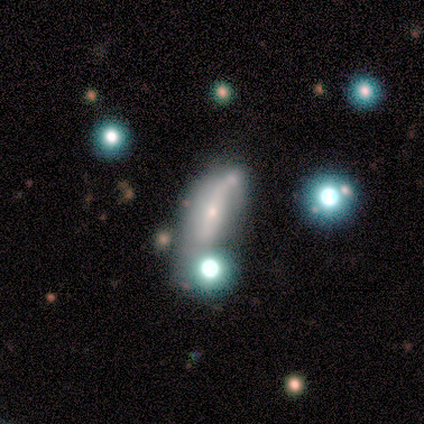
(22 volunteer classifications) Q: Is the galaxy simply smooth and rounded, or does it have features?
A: featured or disk — 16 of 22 (73%).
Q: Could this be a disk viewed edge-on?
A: no — 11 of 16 (69%).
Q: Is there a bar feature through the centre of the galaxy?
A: strong — 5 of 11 (45%).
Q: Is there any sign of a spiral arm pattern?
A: no — 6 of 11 (55%).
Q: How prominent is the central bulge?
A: small — 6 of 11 (55%).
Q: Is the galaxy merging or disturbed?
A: merger — 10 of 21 (48%).